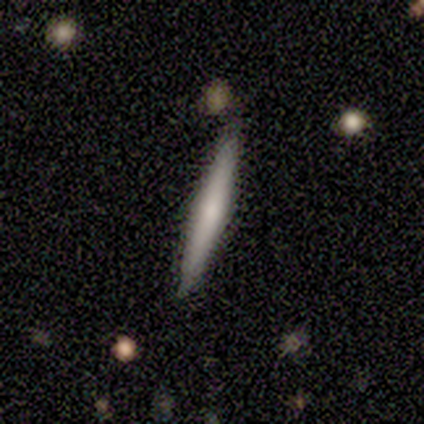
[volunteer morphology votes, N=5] featured or disk 60%, star or artifact 40%, smooth 0%. Down the decision tree: edge-on disk — yes (100%); edge-on bulge — rounded (67%); merging — none (33%, tied with minor disturbance and merger).